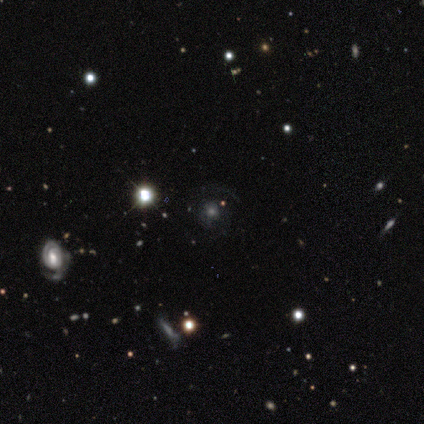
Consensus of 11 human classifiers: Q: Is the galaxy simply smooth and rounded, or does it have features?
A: featured or disk — 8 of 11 (73%).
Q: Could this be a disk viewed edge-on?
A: no — 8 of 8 (100%).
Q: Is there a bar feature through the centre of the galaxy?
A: no — 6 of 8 (75%).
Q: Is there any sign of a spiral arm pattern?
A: yes — 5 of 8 (62%).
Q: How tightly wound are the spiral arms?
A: tight — 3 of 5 (60%).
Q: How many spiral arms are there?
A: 2 — 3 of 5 (60%).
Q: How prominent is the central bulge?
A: moderate — 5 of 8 (62%).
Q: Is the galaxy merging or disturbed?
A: none — 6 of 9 (67%).